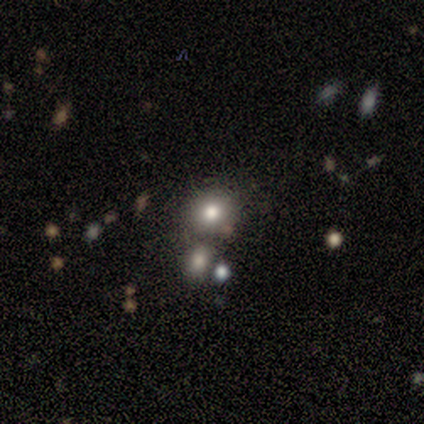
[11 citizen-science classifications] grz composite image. It shows a smooth galaxy with no disk features (73%) that is round (88%). Merging: none (89%).